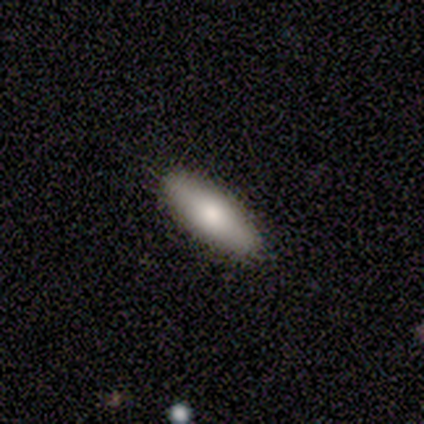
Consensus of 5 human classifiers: Smooth or featured: smooth — 80% (featured or disk — 20%)
How rounded: in between — 75% (cigar-shaped — 25%)
Merging: none — 100%